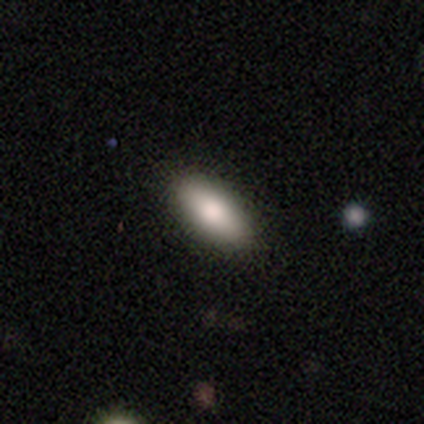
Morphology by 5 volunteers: Smooth or featured? smooth (100%)
How rounded? in between (80%)
Merging? none (100%)